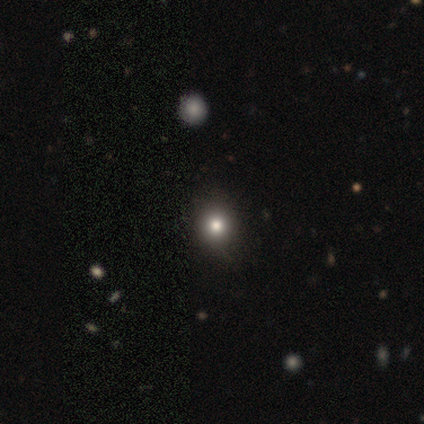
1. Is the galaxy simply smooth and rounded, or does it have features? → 100% smooth, 0% featured or disk, 0% star or artifact.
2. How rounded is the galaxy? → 80% round, 20% in between, 0% cigar-shaped.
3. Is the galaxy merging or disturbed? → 100% none, 0% minor disturbance, 0% major disturbance, 0% merger.